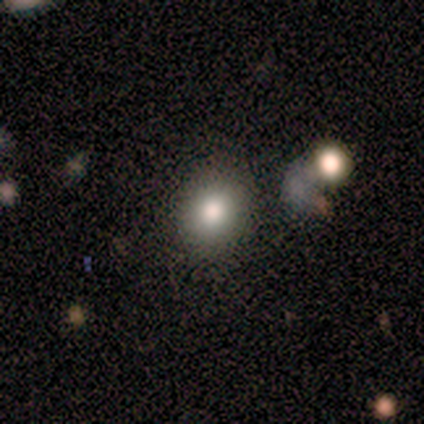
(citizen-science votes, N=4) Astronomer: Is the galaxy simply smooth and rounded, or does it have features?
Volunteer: smooth — 100%.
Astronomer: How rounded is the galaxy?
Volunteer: round — 50%, tied with in between at 50%.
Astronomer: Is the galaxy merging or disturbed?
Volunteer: none — 75%.